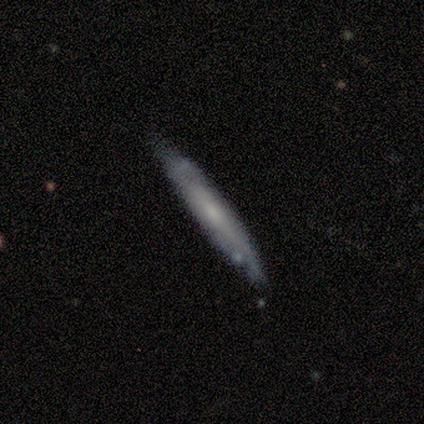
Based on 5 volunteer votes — Smooth or featured? featured or disk (100%)
Edge-on disk? yes (100%)
Edge-on bulge? none (60%)
Merging? none (60%)